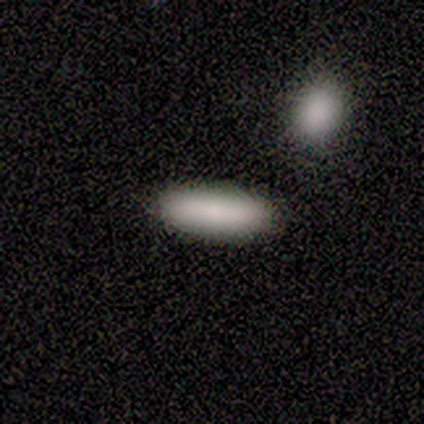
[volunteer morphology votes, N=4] This is clearly a smooth galaxy (100%). How rounded: likely in between (75%). Merging: likely none (75%).